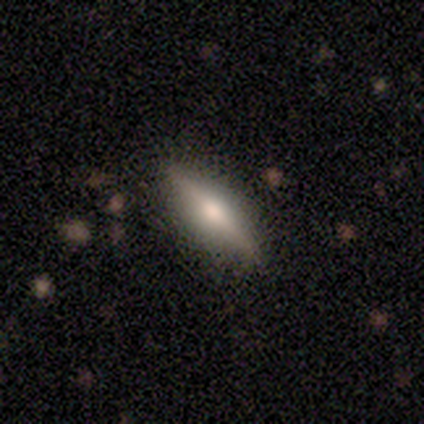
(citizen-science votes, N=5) Morphology: type=featured or disk (100%); edge-on=yes (100%); edge-on bulge=rounded (100%); merging=none (80%).